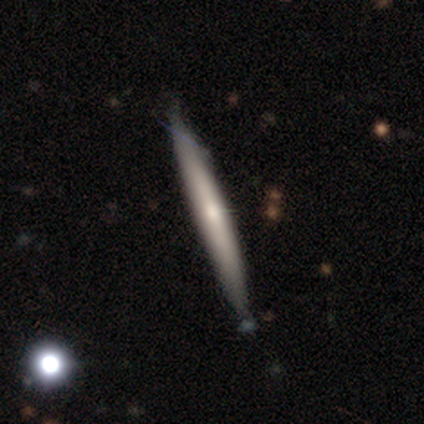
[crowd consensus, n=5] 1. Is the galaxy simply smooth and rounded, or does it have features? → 60% featured or disk, 40% smooth, 0% star or artifact.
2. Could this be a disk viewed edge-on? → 100% yes, 0% no.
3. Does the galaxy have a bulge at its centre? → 100% none, 0% boxy, 0% rounded.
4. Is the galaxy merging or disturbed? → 100% none, 0% minor disturbance, 0% major disturbance, 0% merger.